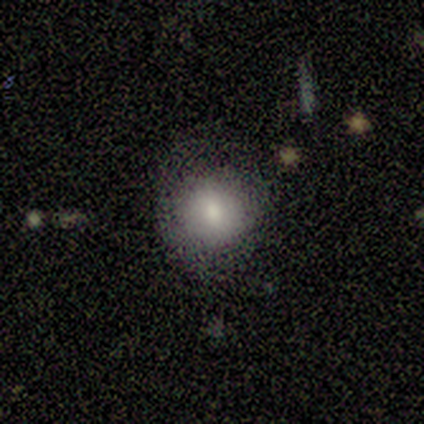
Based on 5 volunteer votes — A smooth galaxy with no disk features (100%) that is round (80%).

Vote fractions:
- Smooth or featured? smooth: 100% / featured or disk: 0% / star or artifact: 0%
- How rounded? round: 80% / in between: 20% / cigar-shaped: 0%
- Merging? none: 80% / major disturbance: 20% / minor disturbance: 0% / merger: 0%